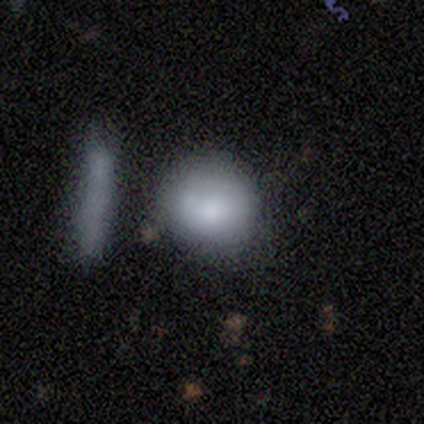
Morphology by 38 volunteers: This appears to be a smooth galaxy with no disk features (71%) that is round (85%). Merging: none (57%).